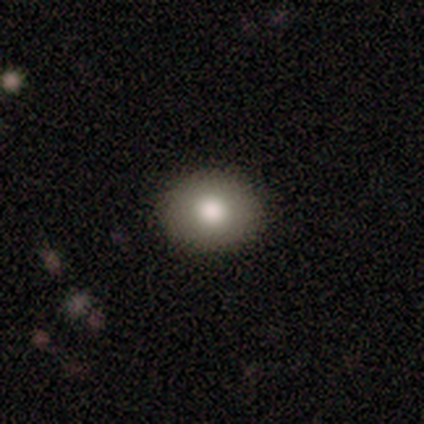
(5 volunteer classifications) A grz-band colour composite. It shows a smooth galaxy with no disk features (60%) that is round (67%). Merging: none (100%).